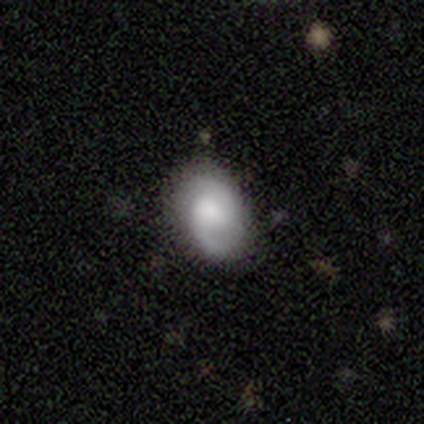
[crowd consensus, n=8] Q: Smooth or featured?
A: featured or disk (75%); runner-up: smooth (25%)
Q: Edge-on disk?
A: no (100%)
Q: Bar?
A: no (67%); runner-up: weak (33%)
Q: Spiral arms?
A: yes (100%)
Q: Spiral winding?
A: medium (67%); runner-up: loose (33%)
Q: Spiral arm count?
A: 2 (83%); runner-up: can't tell (17%)
Q: Bulge size?
A: moderate (33%); tied with: small (33%)
Q: Merging?
A: none (88%); runner-up: minor disturbance (12%)